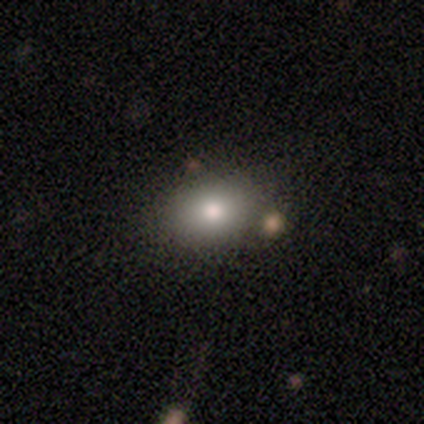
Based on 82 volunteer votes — Q: Smooth or featured?
A: smooth (82%); runner-up: featured or disk (11%)
Q: How rounded?
A: in between (66%); runner-up: round (33%)
Q: Merging?
A: none (76%); runner-up: minor disturbance (20%)